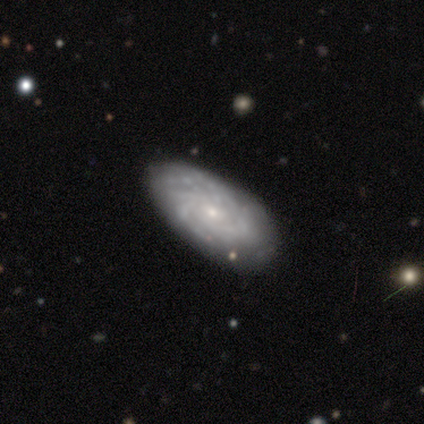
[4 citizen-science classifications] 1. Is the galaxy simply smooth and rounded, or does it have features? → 50% featured or disk, 25% smooth, 25% star or artifact.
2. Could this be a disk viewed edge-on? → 100% no, 0% yes.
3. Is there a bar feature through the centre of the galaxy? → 100% no, 0% strong, 0% weak.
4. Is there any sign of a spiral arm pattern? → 50% yes (tied), 50% no (tied).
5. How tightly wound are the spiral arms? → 100% tight, 0% medium, 0% loose.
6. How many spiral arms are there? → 100% 3, 0% 1, 0% 2, 0% 4, 0% more than 4, 0% can't tell.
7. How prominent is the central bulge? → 50% moderate (tied), 50% small (tied), 0% dominant, 0% large, 0% none.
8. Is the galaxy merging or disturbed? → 100% none, 0% minor disturbance, 0% major disturbance, 0% merger.